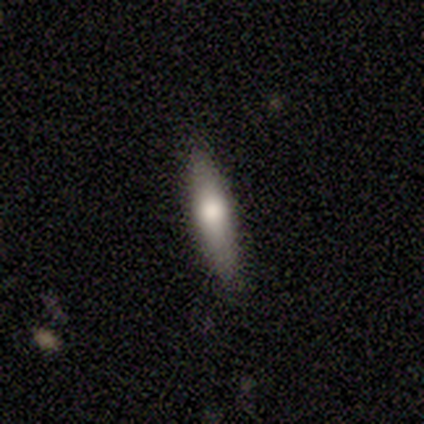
This is likely a featured or disk galaxy (67%). It is possibly viewed edge-on (50%, tied with no). Edge-on bulge: clearly rounded (100%). Merging: likely none (67%).